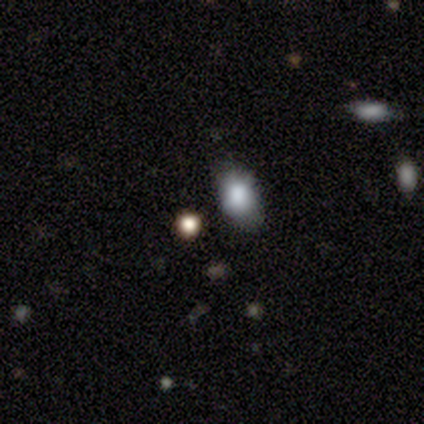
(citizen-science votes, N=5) Smooth or featured? 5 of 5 (100%) said smooth. How rounded? 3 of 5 (60%) said round. Merging? 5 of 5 (100%) said none.